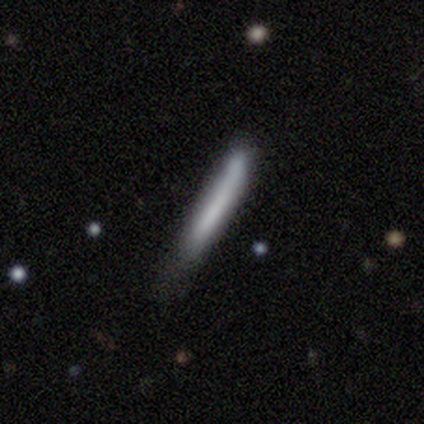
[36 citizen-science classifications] This appears to be a smooth galaxy with no disk features (78%) that is cigar-shaped (96%). Merging: none (45%).